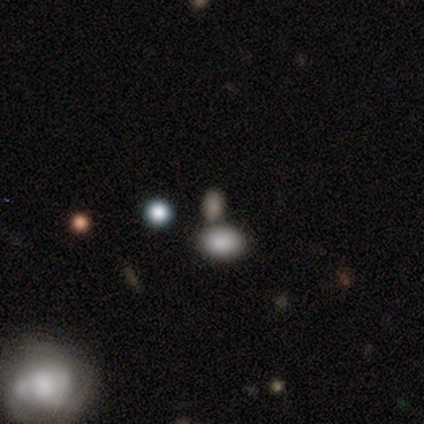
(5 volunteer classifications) Overall: smooth (60%; featured or disk 20%). How rounded: in between (67%; round 33%). Merging: merger (50%; none 25%).